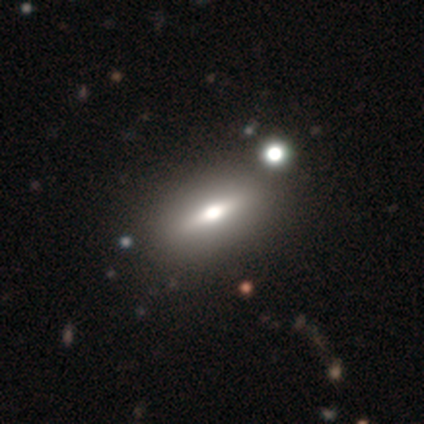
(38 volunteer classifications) Smooth or featured? featured or disk (47%)
Edge-on disk? yes (56%)
Edge-on bulge? rounded (100%)
Merging? none (60%)